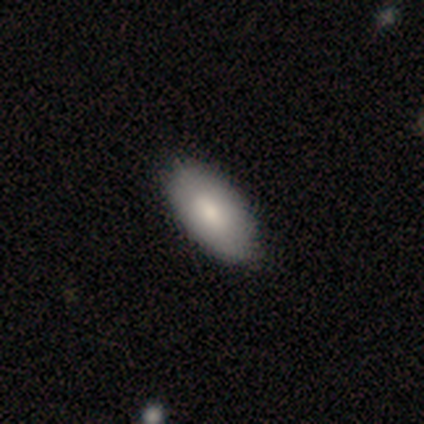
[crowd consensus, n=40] Overall: smooth (72%). How rounded: in between (93%). Merging: none (61%).